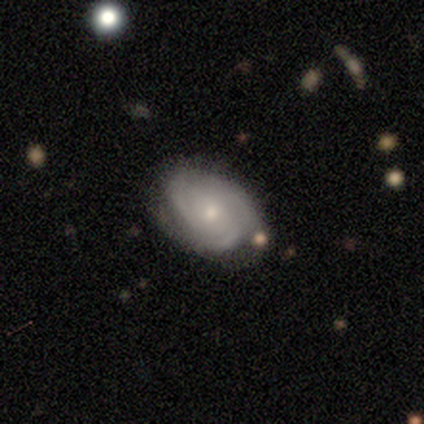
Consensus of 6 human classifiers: This appears to be a featured or disk galaxy (83%) with a weak bar (50%, tied with no), 3 (50%) tight (50%, tied with medium) spiral arms (100%) and a moderate central bulge (50%, tied with small). Merging: none (50%).